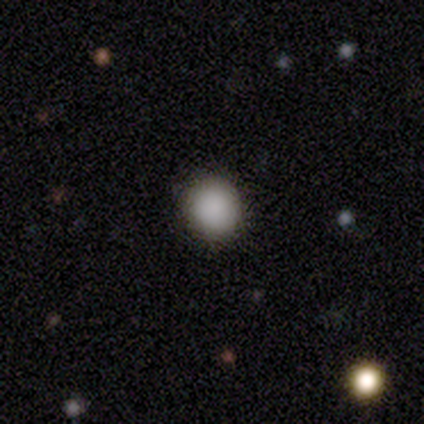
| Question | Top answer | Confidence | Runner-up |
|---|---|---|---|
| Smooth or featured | smooth | 100% | — |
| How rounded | round | 75% | in between (25%) |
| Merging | none | 100% | — |